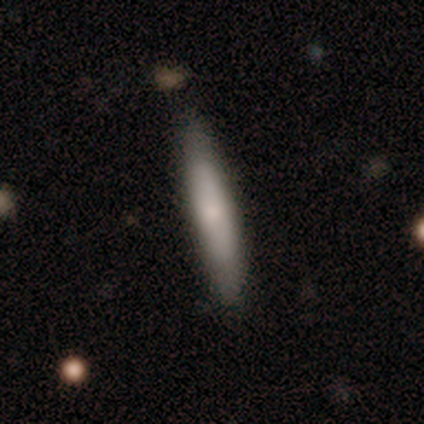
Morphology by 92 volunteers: type=smooth (75%); roundness=cigar-shaped (90%); merging=none (83%).